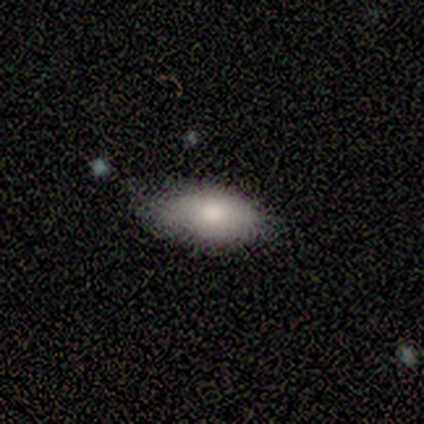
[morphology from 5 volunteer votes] Q: Smooth or featured?
A: smooth (100%)
Q: How rounded?
A: in between (100%)
Q: Merging?
A: none (40%); runner-up: minor disturbance (20%)